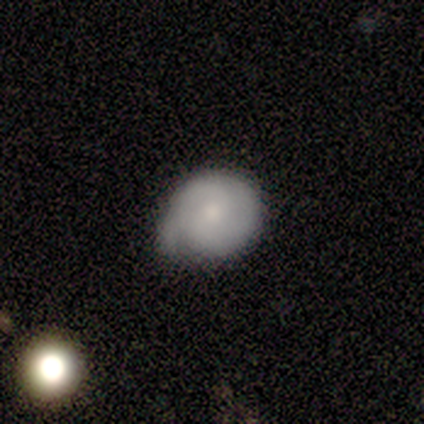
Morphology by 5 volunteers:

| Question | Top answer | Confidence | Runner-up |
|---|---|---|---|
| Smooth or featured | smooth | 60% | featured or disk (20%) |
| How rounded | round | 100% | — |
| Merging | minor disturbance | 50% | none (25%) |